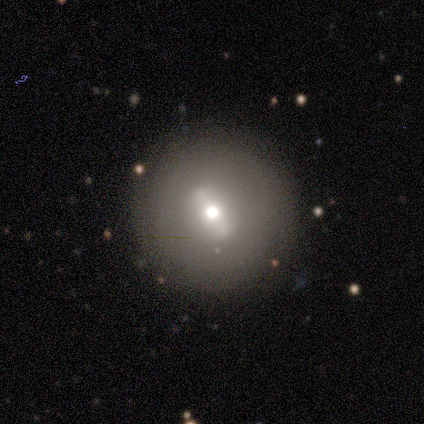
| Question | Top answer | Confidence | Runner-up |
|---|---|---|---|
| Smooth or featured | featured or disk | 80% | smooth (20%) |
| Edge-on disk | no | 100% | — |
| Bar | no | 50% | strong (25%) |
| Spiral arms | no | 100% | — |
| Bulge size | moderate | 50% | tied: small (50%) |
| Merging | none | 80% | minor disturbance (20%) |